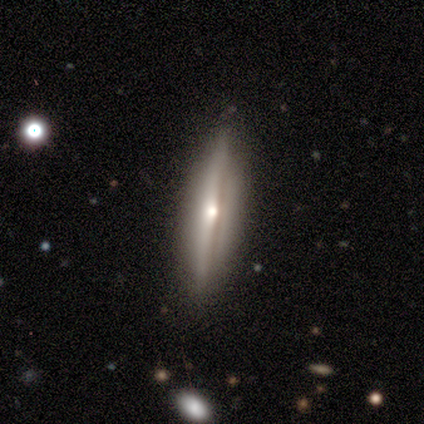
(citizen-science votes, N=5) smooth_or_featured: smooth (p=0.60) [alt: featured or disk p=0.40]
how_rounded: cigar-shaped (p=0.67) [alt: in between p=0.33]
merging: none (p=1.00)